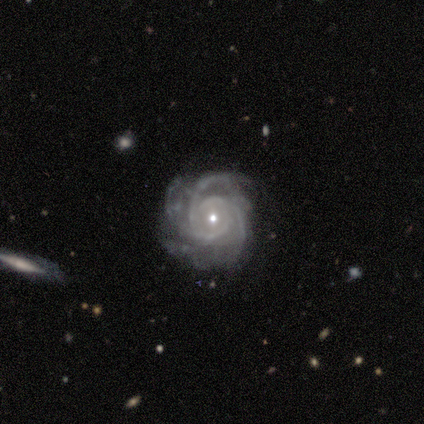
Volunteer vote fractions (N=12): This is clearly a featured or disk galaxy (100%). It is clearly not viewed edge-on (100%). Bar: likely no (75%). Spiral arm pattern: clearly yes (100%). Spiral arm count: marginally 3 (33%). Spiral winding: likely tight (75%). Central bulge: clearly small (83%). Merging: likely none (75%).